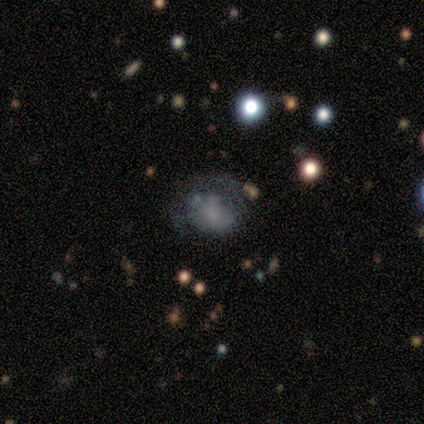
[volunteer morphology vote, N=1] Smooth or featured: smooth — 100%
How rounded: in between — 100%
Merging: minor disturbance — 100%